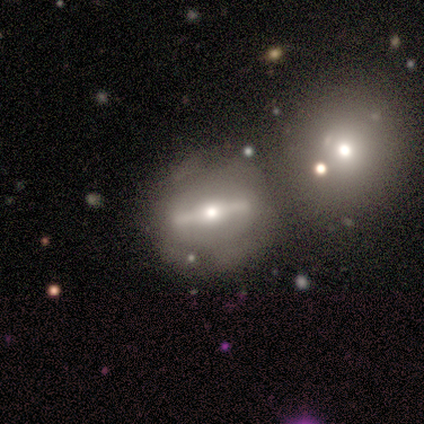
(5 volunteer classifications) A featured or disk galaxy (80%) viewed edge-on (50%, tied with no) with a boxy central bulge (50%, tied with rounded). Merging: minor disturbance (60%).